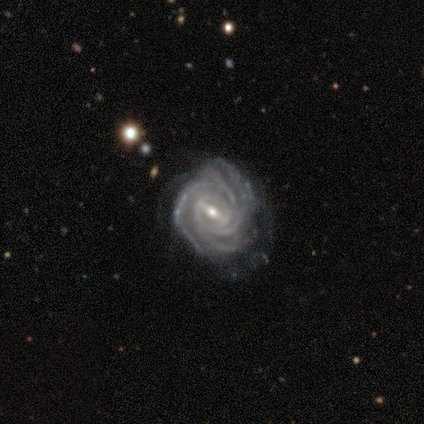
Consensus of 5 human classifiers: A featured or disk galaxy (80%) with a strong bar (50%, tied with weak), tight (100%) spiral arms (100%) and a moderate central bulge (100%). Merging: minor disturbance (75%).